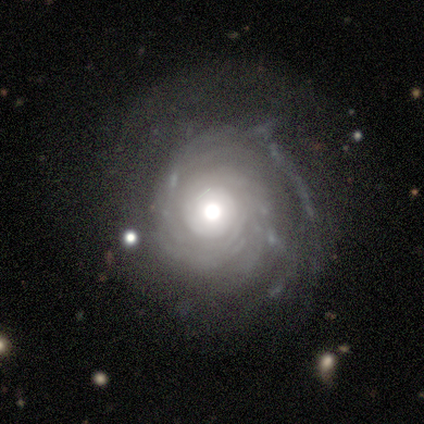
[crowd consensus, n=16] Smooth or featured? 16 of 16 (100%) said featured or disk. Edge-on disk? 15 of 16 (94%) said no. Bar? 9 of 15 (60%) said no. Spiral arms? 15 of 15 (100%) said yes. Spiral winding? 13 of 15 (87%) said tight. Spiral arm count? 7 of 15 (47%) said can't tell. Bulge size? 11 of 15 (73%) said moderate. Merging? 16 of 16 (100%) said none.